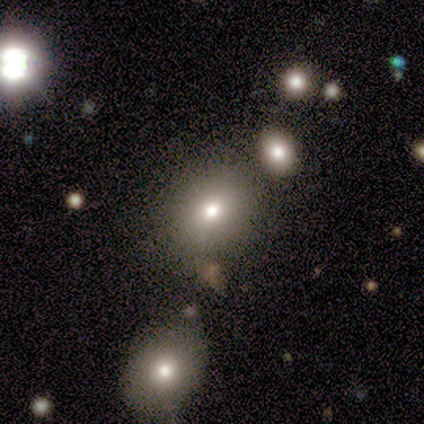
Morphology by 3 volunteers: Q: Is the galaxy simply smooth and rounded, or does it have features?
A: smooth — 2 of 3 (67%).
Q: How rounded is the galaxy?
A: round — 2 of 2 (100%).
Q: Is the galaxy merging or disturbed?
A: none — 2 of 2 (100%).